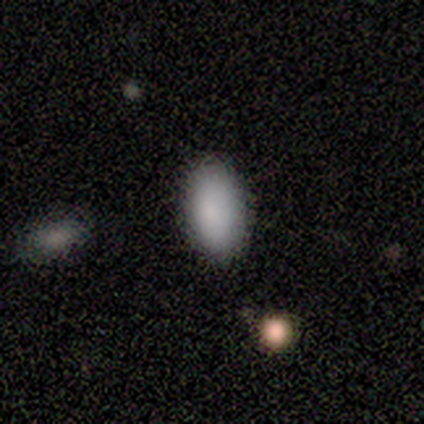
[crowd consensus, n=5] Smooth or featured? smooth (100%)
How rounded? in between (100%)
Merging? none (100%)